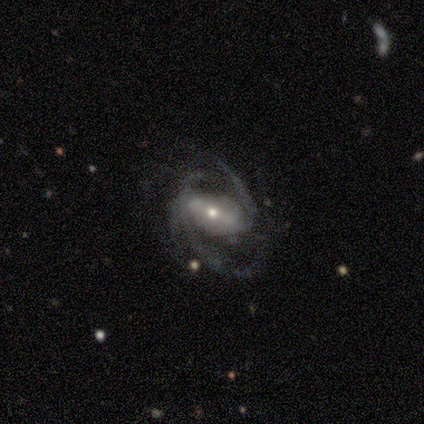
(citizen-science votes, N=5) A featured or disk galaxy (100%) with a strong bar (60%), 2 (75%) medium (75%) spiral arms (80%) and a moderate central bulge (60%). Merging: none (60%).